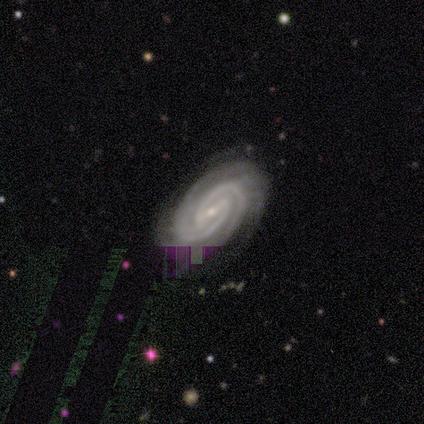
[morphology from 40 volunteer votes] Smooth or featured: featured or disk — 98% (star or artifact — 2%)
Edge-on disk: no — 100%
Bar: strong — 49% (weak — 41%)
Spiral arms: yes — 100%
Spiral winding: tight — 87% (medium — 13%)
Spiral arm count: 2 — 77% (3 — 8%)
Bulge size: small — 87% (moderate — 10%)
Merging: none — 90% (minor disturbance — 5%)